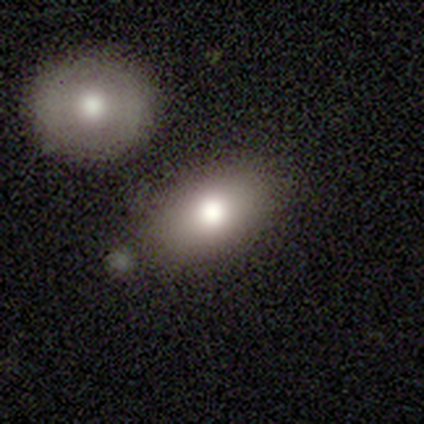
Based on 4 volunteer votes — This appears to be a smooth galaxy with no disk features (100%) that is in between round and cigar-shaped (100%). Merging: none (75%).